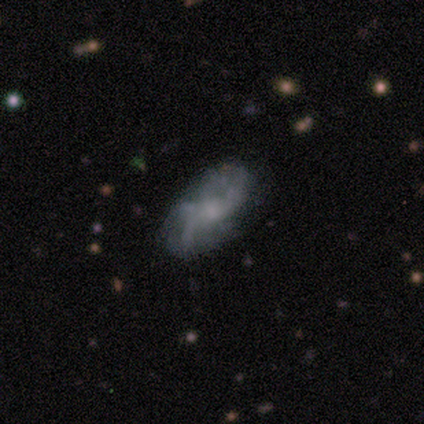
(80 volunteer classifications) Smooth or featured?
  - featured or disk: 69% *
  - smooth: 20%
  - star or artifact: 11%
Edge-on disk?
  - no: 96% *
  - yes: 4%
Bar?
  - no: 72% *
  - weak: 25%
  - strong: 4%
Spiral arms?
  - yes: 72% *
  - no: 28%
Spiral winding?
  - loose: 53% *
  - medium: 32%
  - tight: 16%
Spiral arm count?
  - 2: 61% *
  - can't tell: 16%
  - 3: 11%
  - 4: 11%
  - 1: 3%
  - more than 4: 0%
Bulge size?
  - small: 38% *
  - moderate: 32%
  - none: 21%
  - large: 9%
  - dominant: 0%
Merging?
  - none: 54% *
  - minor disturbance: 31%
  - major disturbance: 13%
  - merger: 3%